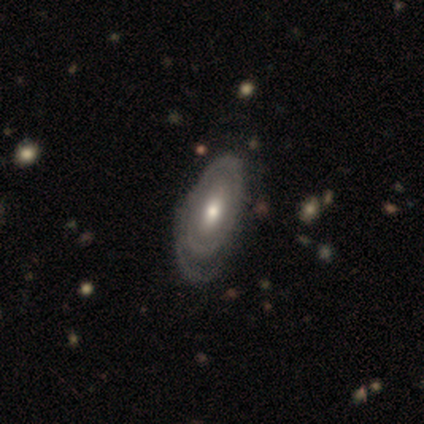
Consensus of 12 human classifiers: smooth-or-featured: featured or disk: 92% | smooth: 8% | star or artifact: 0%
  disk-edge-on: no: 100% | yes: 0%
    bar: no: 82% | strong: 9% | weak: 9%
    has-spiral-arms: yes: 55% | no: 45%
      spiral-winding: tight: 83% | medium: 17% | loose: 0%
      spiral-arm-count: 1: 50% | can't tell: 33% | 2: 17% | 3: 0% | 4: 0% | more than 4: 0%
    bulge-size: moderate: 64% | small: 27% | large: 9% | dominant: 0% | none: 0%
  merging: none: 58% | minor disturbance: 25% | major disturbance: 17% | merger: 0%